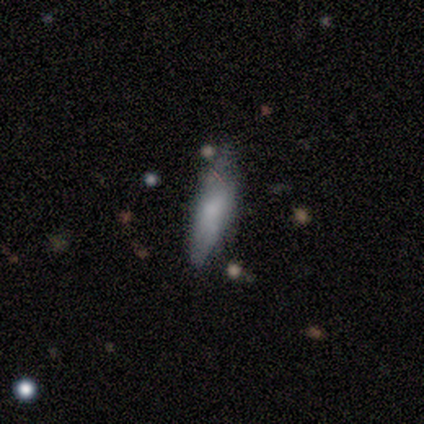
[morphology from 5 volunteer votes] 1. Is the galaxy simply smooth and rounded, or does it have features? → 80% smooth, 20% featured or disk, 0% star or artifact.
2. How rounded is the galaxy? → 50% in between (tied), 50% cigar-shaped (tied), 0% round.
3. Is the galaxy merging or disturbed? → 60% minor disturbance, 40% none, 0% major disturbance, 0% merger.